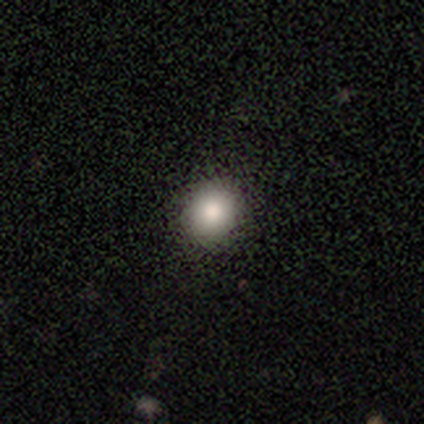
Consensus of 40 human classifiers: Smooth or featured? 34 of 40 (85%) said smooth. How rounded? 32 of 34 (94%) said round. Merging? 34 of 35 (97%) said none.